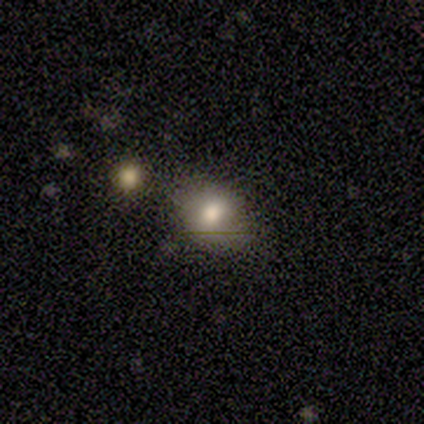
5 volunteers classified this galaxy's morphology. A smooth galaxy with no disk features (60%) that is round (67%).

Vote fractions:
- Smooth or featured? smooth: 60% / star or artifact: 40% / featured or disk: 0%
- How rounded? round: 67% / in between: 33% / cigar-shaped: 0%
- Merging? major disturbance: 67% / none: 33% / minor disturbance: 0% / merger: 0%